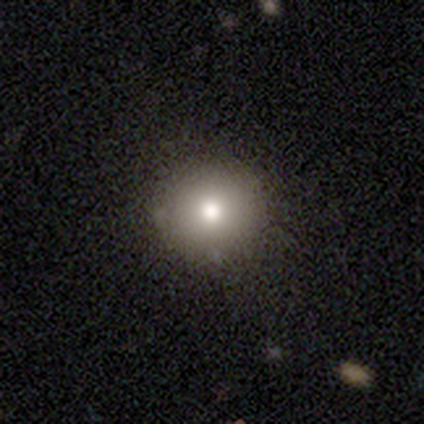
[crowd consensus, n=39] Morphology: type=smooth (79%); roundness=round (97%); merging=none (89%).